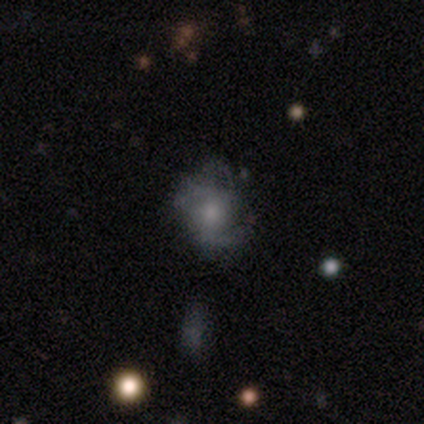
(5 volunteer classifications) Smooth or featured?
  - smooth: 60% *
  - featured or disk: 40%
  - star or artifact: 0%
How rounded?
  - in between: 67% *
  - round: 33%
  - cigar-shaped: 0%
Merging?
  - none: 40% * (tied)
  - minor disturbance: 40% * (tied)
  - major disturbance: 20%
  - merger: 0%